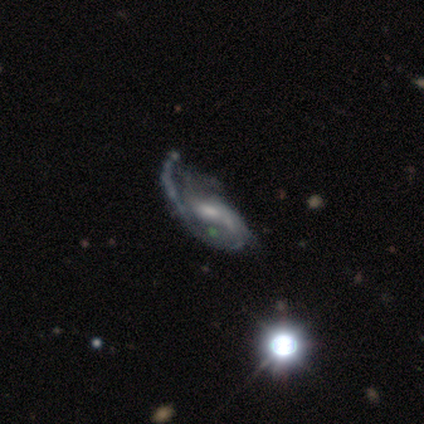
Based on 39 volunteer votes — Overall: featured or disk (90%). Edge-on disk: no (100%). Bar: no (49%; weak 37%). Spiral arms: yes (89%). Spiral arm count: 1 (45%; 2 35%). Spiral winding: loose (42%; medium 32%). Bulge size: small (54%; moderate 26%). Merging: major disturbance (27%; none 24%).